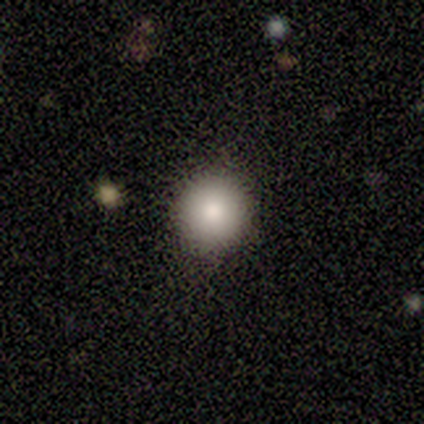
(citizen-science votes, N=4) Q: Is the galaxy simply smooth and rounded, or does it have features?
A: smooth — 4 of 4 (100%).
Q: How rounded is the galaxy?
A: round — 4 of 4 (100%).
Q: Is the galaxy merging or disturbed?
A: none — 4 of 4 (100%).